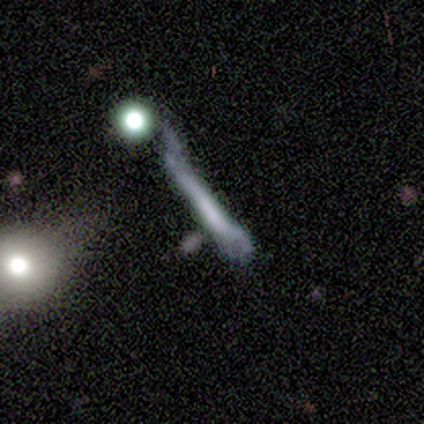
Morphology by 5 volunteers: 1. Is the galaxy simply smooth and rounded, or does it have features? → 40% smooth (tied), 40% featured or disk (tied), 20% star or artifact.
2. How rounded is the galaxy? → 100% cigar-shaped, 0% round, 0% in between.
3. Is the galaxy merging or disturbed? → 50% major disturbance, 25% none, 25% minor disturbance, 0% merger.